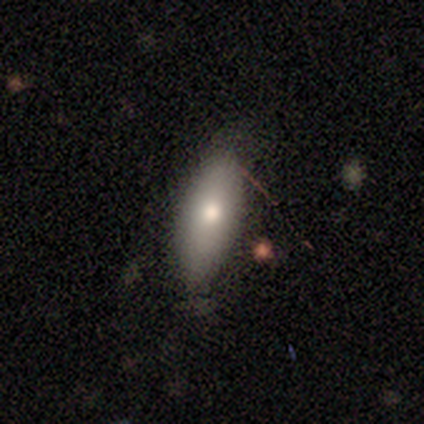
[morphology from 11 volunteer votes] smooth 82%, featured or disk 9%, star or artifact 9%. Down the decision tree: how rounded — in between (89%); merging — none (90%).